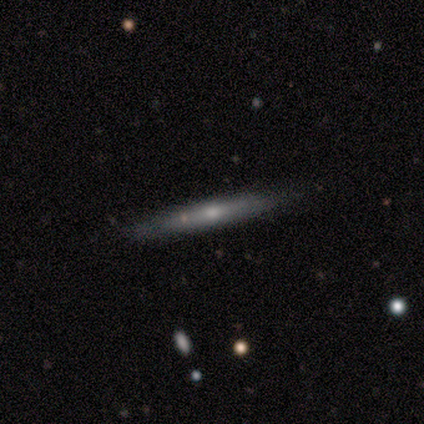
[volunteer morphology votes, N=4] Volunteers were most divided on "smooth or featured": smooth: 50%, featured or disk: 25%, star or artifact: 25%. More confident: how rounded — cigar-shaped (100%); merging — none (67%).